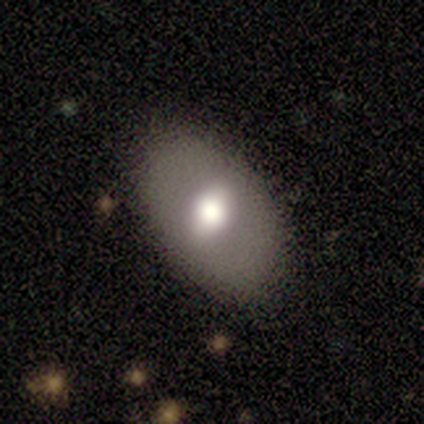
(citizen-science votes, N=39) This is possibly a smooth galaxy (59%). How rounded: clearly in between (91%). Merging: likely none (75%).